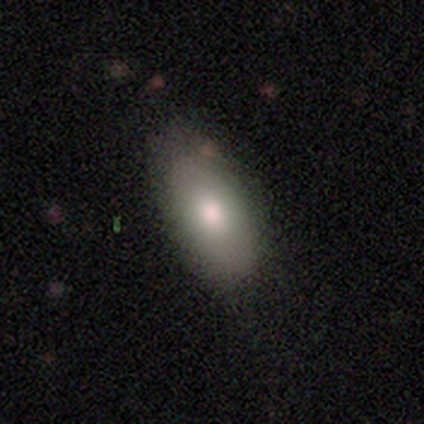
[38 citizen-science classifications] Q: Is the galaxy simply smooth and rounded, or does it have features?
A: smooth — 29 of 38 (76%).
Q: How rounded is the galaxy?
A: in between — 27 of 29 (93%).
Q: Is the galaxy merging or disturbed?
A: none — 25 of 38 (66%).